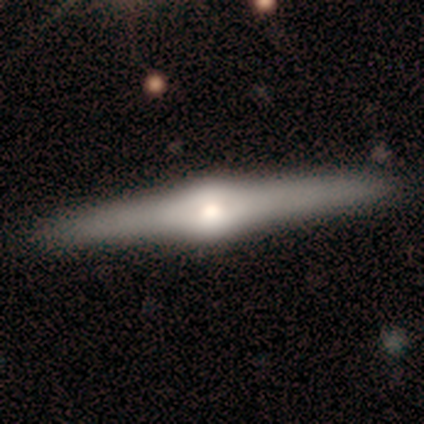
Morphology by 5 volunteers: Smooth or featured? 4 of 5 (80%) said featured or disk. Edge-on disk? 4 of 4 (100%) said yes. Edge-on bulge? 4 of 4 (100%) said rounded. Merging? 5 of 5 (100%) said none.